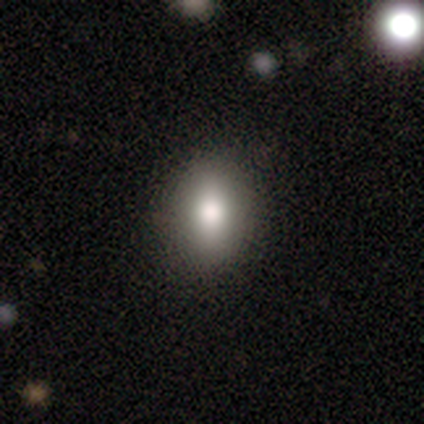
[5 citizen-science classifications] Volunteers were most divided on "how rounded": in between: 75%, round: 25%, cigar-shaped: 0%. More confident: merging — none (100%); smooth or featured — smooth (80%).